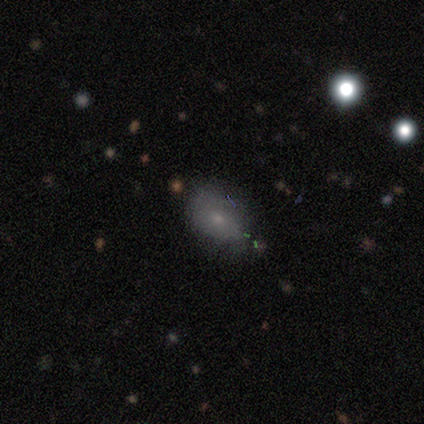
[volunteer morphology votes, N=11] Smooth or featured? smooth (91%)
How rounded? in between (100%)
Merging? none (55%)